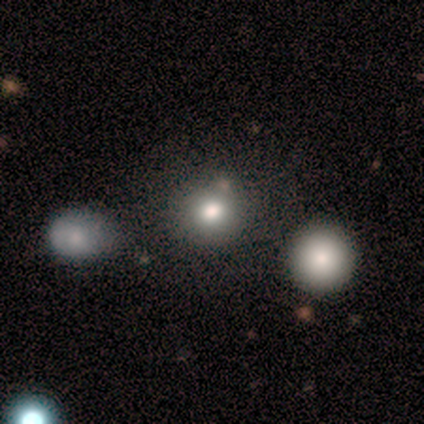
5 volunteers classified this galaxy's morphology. A smooth galaxy with no disk features (80%) that is round (75%).

Vote fractions:
- Smooth or featured? smooth: 80% / featured or disk: 20% / star or artifact: 0%
- How rounded? round: 75% / in between: 25% / cigar-shaped: 0%
- Merging? none: 80% / minor disturbance: 20% / major disturbance: 0% / merger: 0%